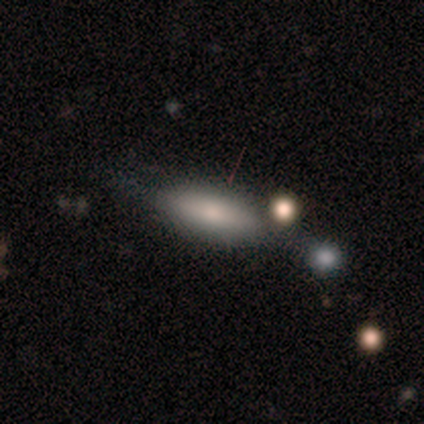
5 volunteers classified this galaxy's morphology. smooth-or-featured: smooth: 60% | featured or disk: 20% | star or artifact: 20%
  how-rounded: cigar-shaped: 67% | in between: 33% | round: 0%
  merging: none: 100% | minor disturbance: 0% | major disturbance: 0% | merger: 0%